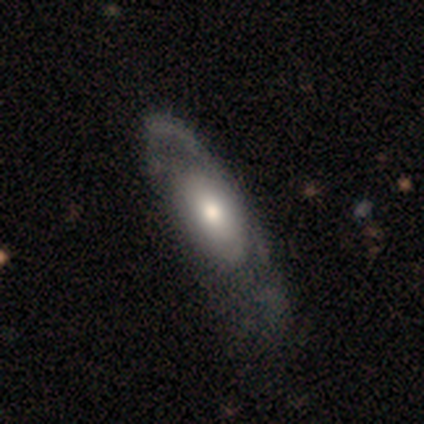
A featured or disk galaxy (60%) with no bar (100%), 1 (100%) medium (100%) spiral arms (50%, tied with no) and a large central bulge (50%, tied with moderate). Merging: minor disturbance (50%).